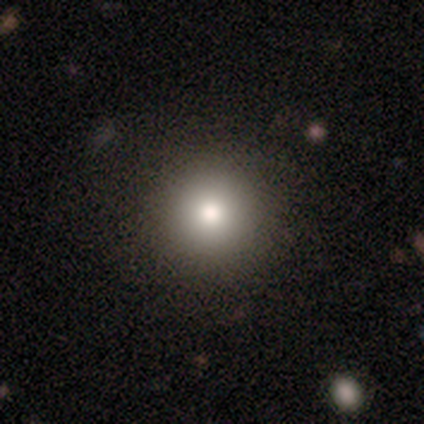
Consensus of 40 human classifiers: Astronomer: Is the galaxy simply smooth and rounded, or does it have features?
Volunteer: smooth — 82%.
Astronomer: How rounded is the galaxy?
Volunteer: round — 91%.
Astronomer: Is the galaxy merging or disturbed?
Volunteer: none — 59%.